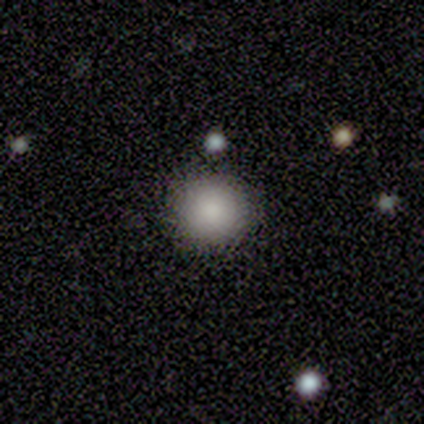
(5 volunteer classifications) Overall: smooth (80%). How rounded: round (75%). Merging: none (100%).